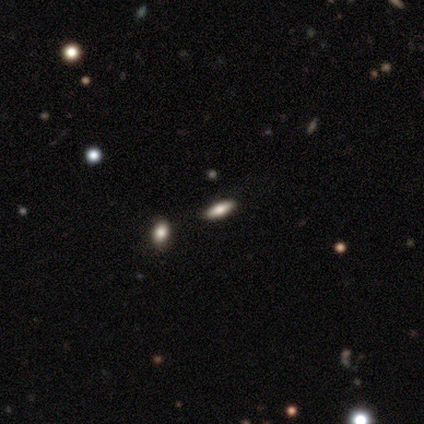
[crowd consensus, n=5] smooth-or-featured: smooth: 40% (tied) | featured or disk: 40% (tied) | star or artifact: 20%
  how-rounded: in between: 100% | round: 0% | cigar-shaped: 0%
  merging: none: 50% | minor disturbance: 25% | merger: 25% | major disturbance: 0%